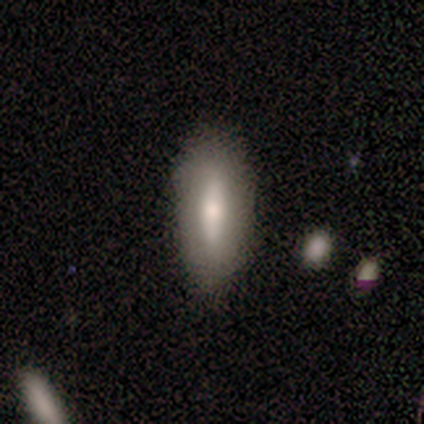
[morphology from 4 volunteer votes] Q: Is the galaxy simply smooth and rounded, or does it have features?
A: smooth — 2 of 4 (50%, tied with featured or disk).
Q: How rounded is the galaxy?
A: in between — 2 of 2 (100%).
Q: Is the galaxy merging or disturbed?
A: none — 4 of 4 (100%).